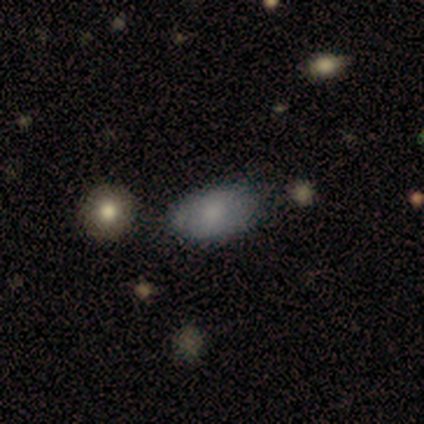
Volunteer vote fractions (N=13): Smooth or featured? smooth (62%)
How rounded? in between (88%)
Merging? none (70%)